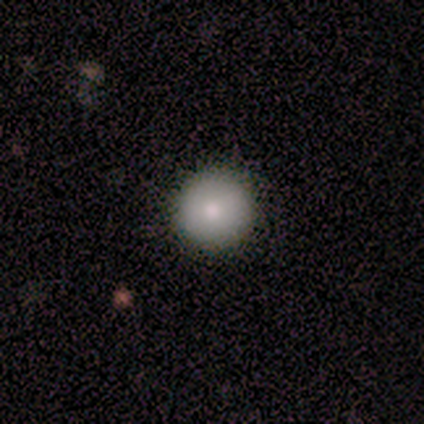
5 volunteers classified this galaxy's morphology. This is clearly a smooth galaxy (80%). How rounded: clearly round (100%). Merging: clearly none (100%).